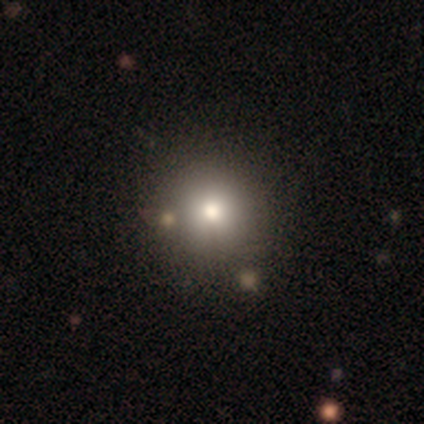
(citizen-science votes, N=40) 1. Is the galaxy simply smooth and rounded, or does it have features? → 68% smooth, 18% star or artifact, 15% featured or disk.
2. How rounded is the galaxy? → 93% round, 7% in between, 0% cigar-shaped.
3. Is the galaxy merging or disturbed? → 85% none, 9% merger, 6% minor disturbance, 0% major disturbance.